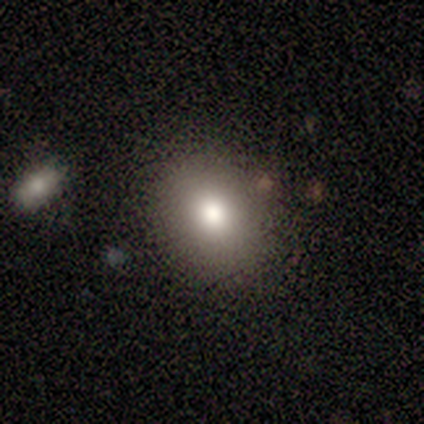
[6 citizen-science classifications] This appears to be a smooth galaxy with no disk features (83%) that is in between round and cigar-shaped (60%). Merging: none (83%).